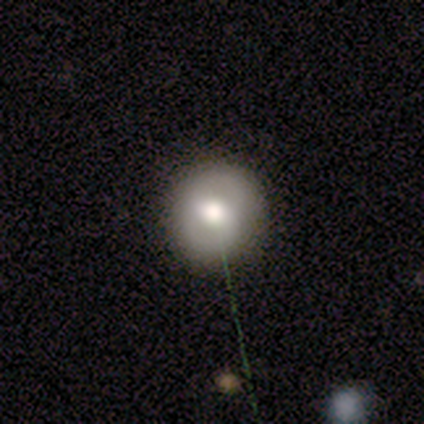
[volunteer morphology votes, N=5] This is marginally a smooth galaxy (40%, tied with featured or disk). How rounded: clearly round (100%). Merging: clearly none (100%).